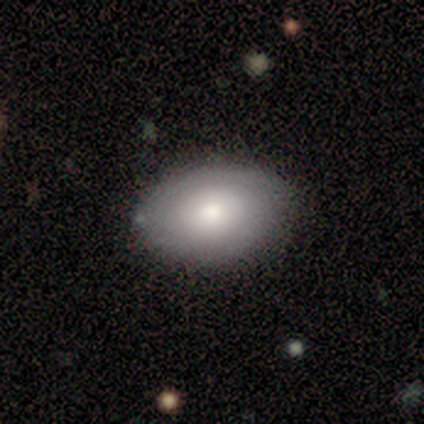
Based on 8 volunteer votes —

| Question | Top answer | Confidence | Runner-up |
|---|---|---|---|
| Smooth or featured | featured or disk | 50% | smooth (38%) |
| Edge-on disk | no | 100% | — |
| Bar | weak | 50% | tied: no (50%) |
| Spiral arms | yes | 75% | no (25%) |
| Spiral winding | tight | 67% | medium (33%) |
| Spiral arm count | can't tell | 67% | 2 (33%) |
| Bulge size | moderate | 75% | small (25%) |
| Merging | none | 100% | — |